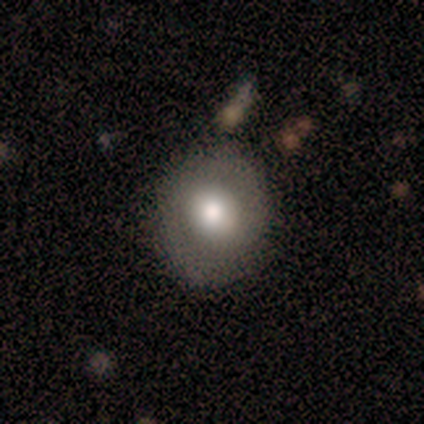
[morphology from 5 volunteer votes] This appears to be a featured or disk galaxy (80%) with no bar (75%), no spiral arms (100%) and a large central bulge (50%, tied with moderate). Merging: none (100%).